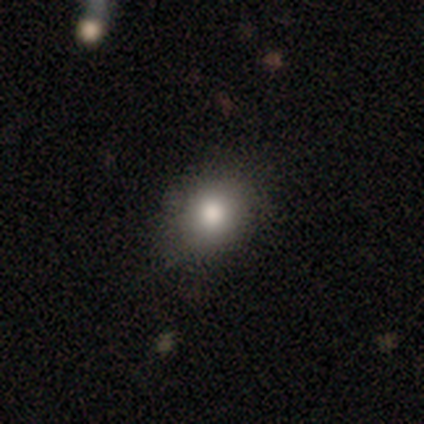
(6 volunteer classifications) A smooth galaxy with no disk features (100%) that is round (50%, tied with in between).

Vote fractions:
- Smooth or featured? smooth: 100% / featured or disk: 0% / star or artifact: 0%
- How rounded? round: 50% (tied) / in between: 50% (tied) / cigar-shaped: 0%
- Merging? none: 83% / minor disturbance: 17% / major disturbance: 0% / merger: 0%